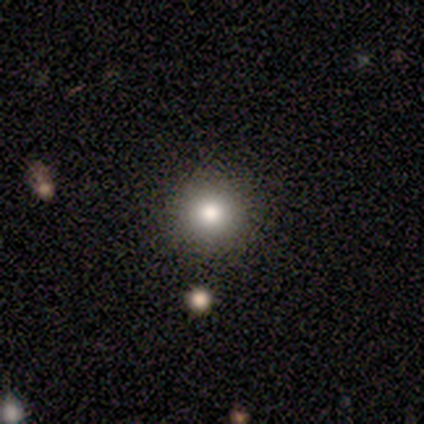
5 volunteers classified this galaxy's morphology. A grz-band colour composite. It shows a smooth galaxy with no disk features (40%, tied with star or artifact) that is round (100%). Merging: none (67%).